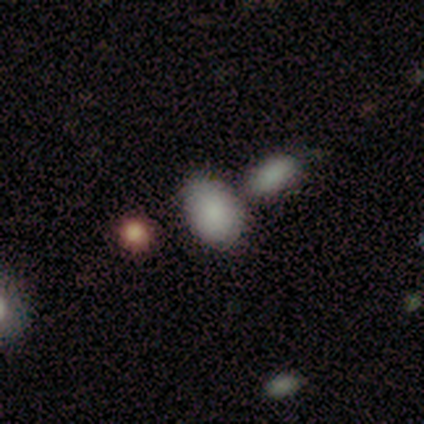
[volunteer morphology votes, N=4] Smooth or featured?
  - smooth: 100% *
  - featured or disk: 0%
  - star or artifact: 0%
How rounded?
  - in between: 75% *
  - round: 25%
  - cigar-shaped: 0%
Merging?
  - none: 50% *
  - minor disturbance: 25%
  - merger: 25%
  - major disturbance: 0%